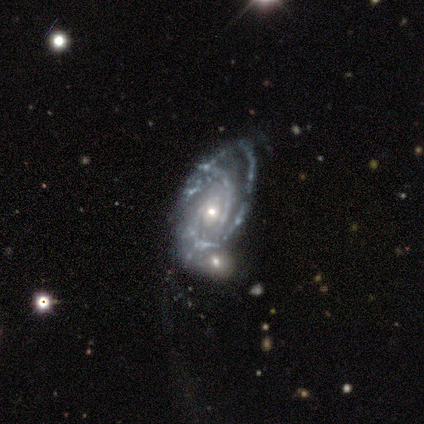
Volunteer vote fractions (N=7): featured or disk 86%, smooth 14%, star or artifact 0%. Down the decision tree: edge-on disk — no (83%); bar — no (100%); spiral arms — yes (100%); spiral arm count — 2 (60%); spiral winding — tight (80%); bulge size — moderate (60%); merging — minor disturbance (43%).